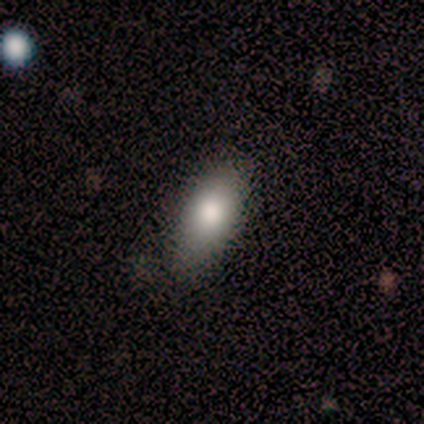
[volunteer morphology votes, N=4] smooth 100%, featured or disk 0%, star or artifact 0%. Down the decision tree: how rounded — in between (100%); merging — none (100%).